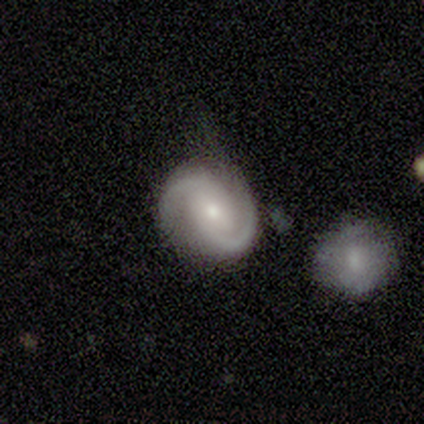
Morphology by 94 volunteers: This is clearly a featured or disk galaxy (85%). It is clearly not viewed edge-on (99%). Bar: possibly no (47%). Spiral arm pattern: clearly yes (99%). Spiral arm count: clearly 2 (97%). Spiral winding: possibly medium (53%). Central bulge: possibly moderate (53%). Merging: possibly none (54%).